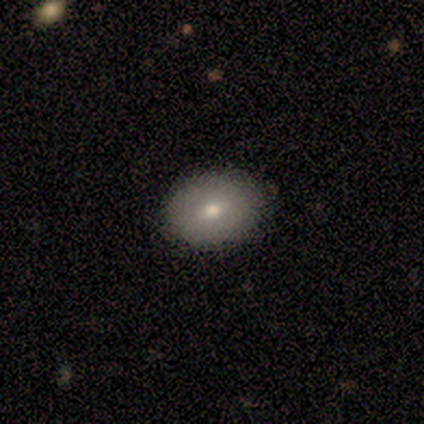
Smooth or featured?
  - smooth: 100% *
  - featured or disk: 0%
  - star or artifact: 0%
How rounded?
  - in between: 60% *
  - round: 40%
  - cigar-shaped: 0%
Merging?
  - none: 100% *
  - minor disturbance: 0%
  - major disturbance: 0%
  - merger: 0%